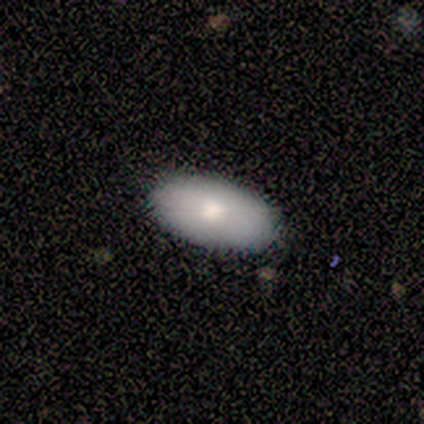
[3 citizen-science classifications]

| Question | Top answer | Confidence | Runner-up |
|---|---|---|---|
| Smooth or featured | smooth | 67% | featured or disk (33%) |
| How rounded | in between | 100% | — |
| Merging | none | 100% | — |